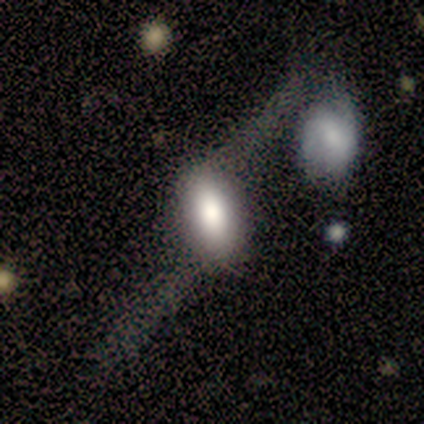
This appears to be a smooth galaxy with no disk features (60%) that is in between round and cigar-shaped (100%). Merging: minor disturbance (50%).